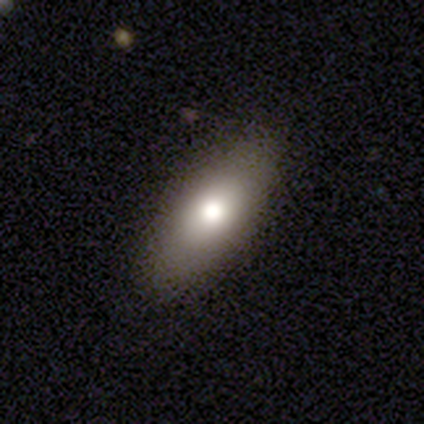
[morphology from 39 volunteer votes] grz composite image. It shows a smooth galaxy with no disk features (69%) that is in between round and cigar-shaped (85%). Merging: none (89%).